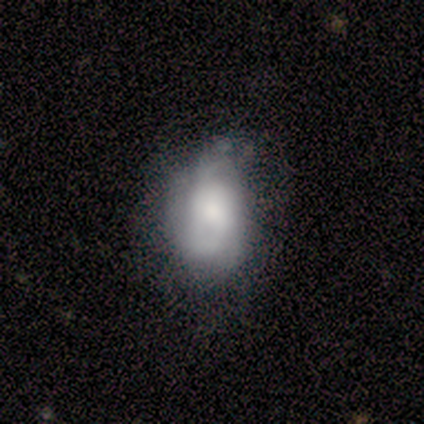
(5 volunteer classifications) This is likely a featured or disk galaxy (60%). It is clearly not viewed edge-on (100%). Bar: clearly no (100%). Spiral arm pattern: likely yes (67%). Spiral arm count: clearly can't tell (100%). Spiral winding: possibly tight (50%, tied with medium). Central bulge: likely small (67%). Merging: clearly minor disturbance (80%).